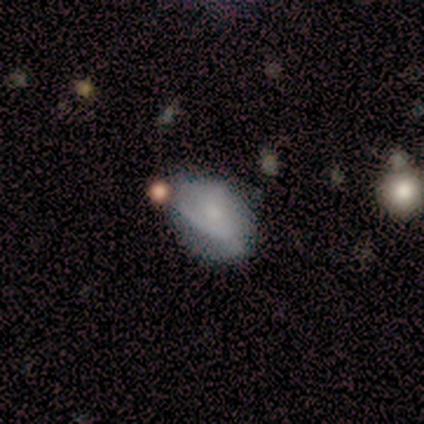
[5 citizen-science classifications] Smooth or featured? featured or disk (60%)
Edge-on disk? no (100%)
Bar? weak (67%)
Spiral arms? yes (67%)
Spiral winding? tight (50%, tied with loose)
Spiral arm count? can't tell (100%)
Bulge size? small (67%)
Merging? minor disturbance (60%)